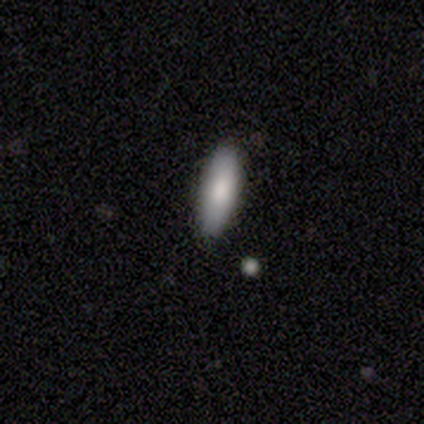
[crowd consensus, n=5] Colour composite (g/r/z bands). It shows a smooth galaxy with no disk features (80%) that is cigar-shaped (75%). Merging: none (100%).